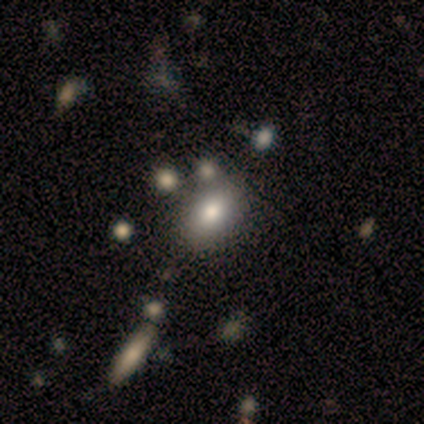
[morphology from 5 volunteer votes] smooth 60%, featured or disk 40%, star or artifact 0%. Down the decision tree: how rounded — in between (100%); merging — none (60%).